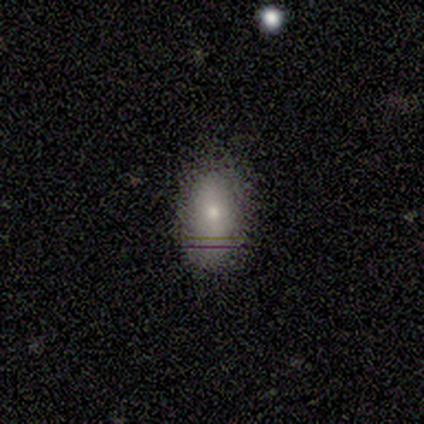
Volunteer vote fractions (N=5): Smooth or featured: smooth — 80% (featured or disk — 20%)
How rounded: in between — 100%
Merging: none — 100%